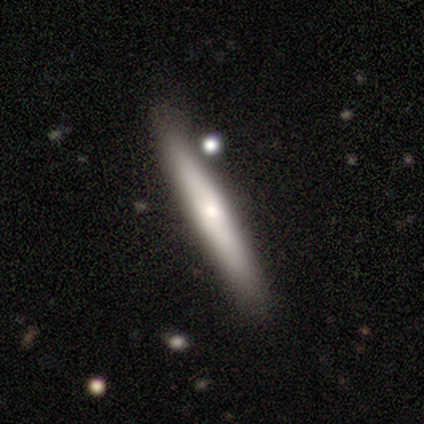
Smooth or featured: featured or disk — 60% (smooth — 20%)
Edge-on disk: yes — 100%
Edge-on bulge: rounded — 67% (none — 33%)
Merging: none — 75% (merger — 25%)